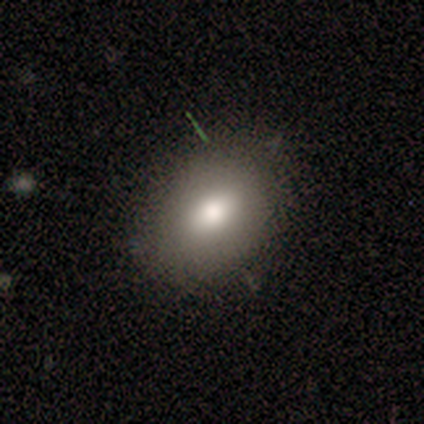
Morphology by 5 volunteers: Smooth or featured?
  - smooth: 100% *
  - featured or disk: 0%
  - star or artifact: 0%
How rounded?
  - in between: 100% *
  - round: 0%
  - cigar-shaped: 0%
Merging?
  - none: 60% *
  - minor disturbance: 20%
  - major disturbance: 20%
  - merger: 0%